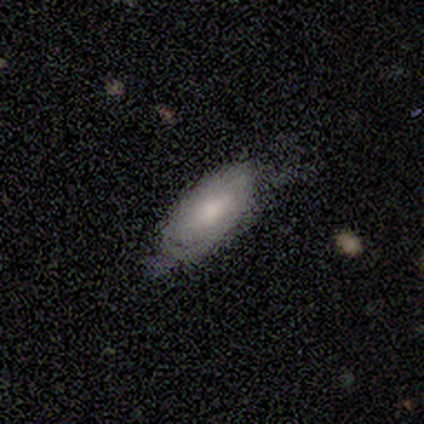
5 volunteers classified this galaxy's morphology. Smooth or featured: smooth — 60% (featured or disk — 40%)
How rounded: in between — 100%
Merging: none — 60% (minor disturbance — 20%)